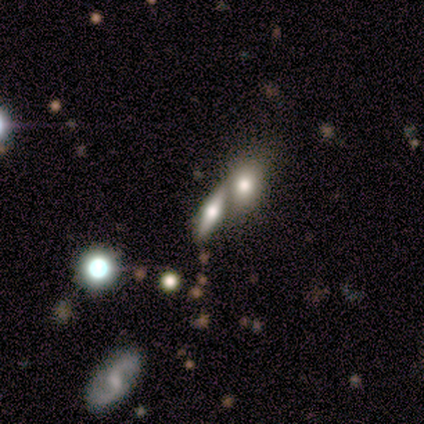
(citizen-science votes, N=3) This appears to be a smooth galaxy with no disk features (33%, tied with featured or disk and star or artifact) that is in between round and cigar-shaped (100%). Merging: none (50%, tied with merger).